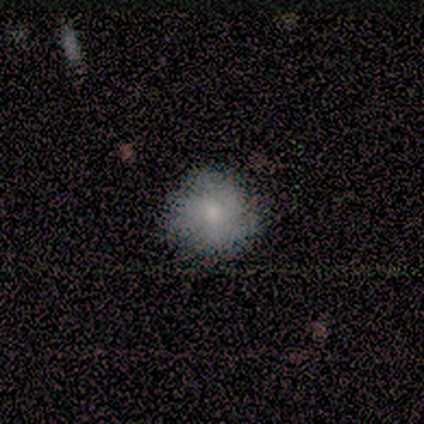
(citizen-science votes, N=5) This appears to be a smooth galaxy with no disk features (100%) that is round (100%). Merging: none (100%).